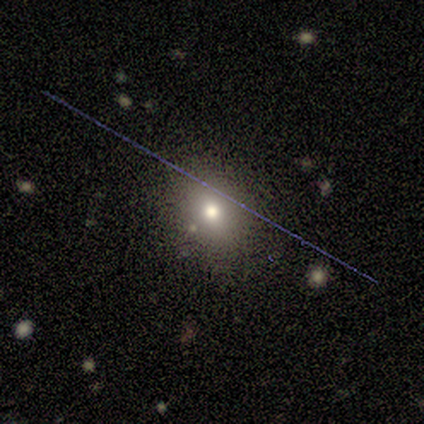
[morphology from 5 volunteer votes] This appears to be a smooth galaxy with no disk features (60%) that is round (67%). Merging: none (60%).